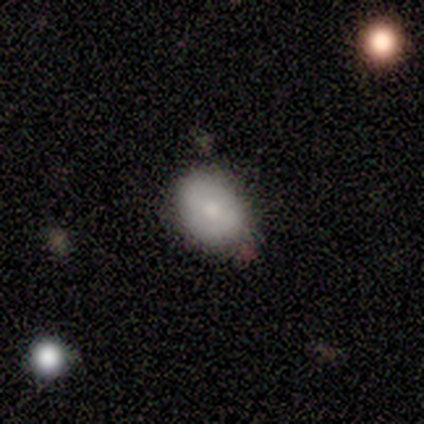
This is clearly a smooth galaxy (100%). How rounded: clearly in between (80%). Merging: clearly none (100%).